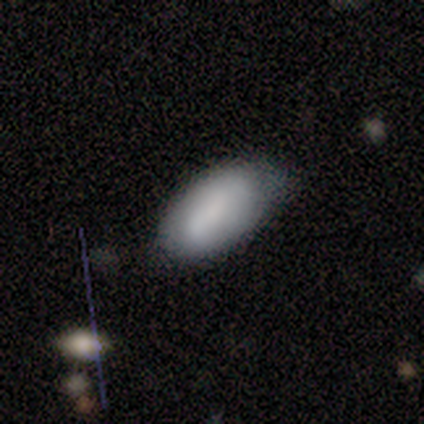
smooth-or-featured: smooth: 80% | featured or disk: 20% | star or artifact: 0%
  how-rounded: round: 50% (tied) | in between: 50% (tied) | cigar-shaped: 0%
  merging: none: 60% | minor disturbance: 40% | major disturbance: 0% | merger: 0%